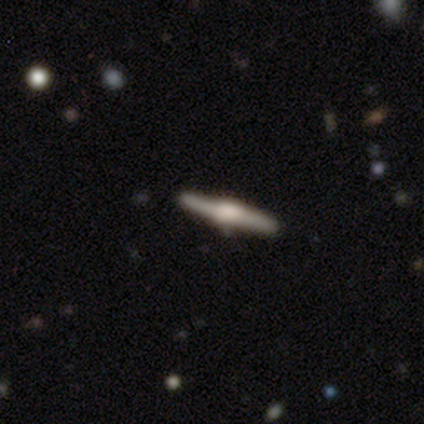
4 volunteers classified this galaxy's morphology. smooth-or-featured: smooth: 50% (tied) | featured or disk: 50% (tied) | star or artifact: 0%
  how-rounded: cigar-shaped: 100% | round: 0% | in between: 0%
  merging: none: 100% | minor disturbance: 0% | major disturbance: 0% | merger: 0%